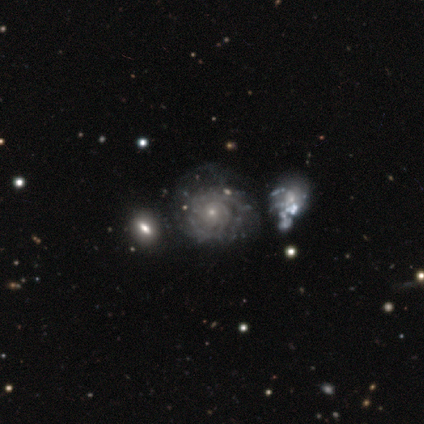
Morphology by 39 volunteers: Smooth or featured? 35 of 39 (90%) said featured or disk. Edge-on disk? 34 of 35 (97%) said no. Bar? 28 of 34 (82%) said no. Spiral arms? 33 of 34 (97%) said yes. Spiral winding? 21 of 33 (64%) said tight. Spiral arm count? 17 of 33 (52%) said can't tell. Bulge size? 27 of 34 (79%) said small. Merging? 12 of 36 (33%) said none.